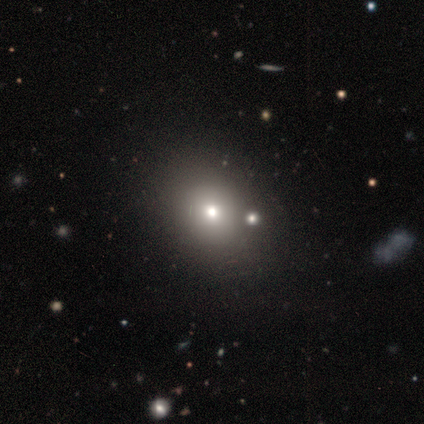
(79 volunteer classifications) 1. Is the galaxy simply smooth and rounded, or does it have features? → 62% smooth, 19% featured or disk, 19% star or artifact.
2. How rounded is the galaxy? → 51% in between, 49% round, 0% cigar-shaped.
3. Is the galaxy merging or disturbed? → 39% none, 20% merger, 5% minor disturbance, 0% major disturbance.